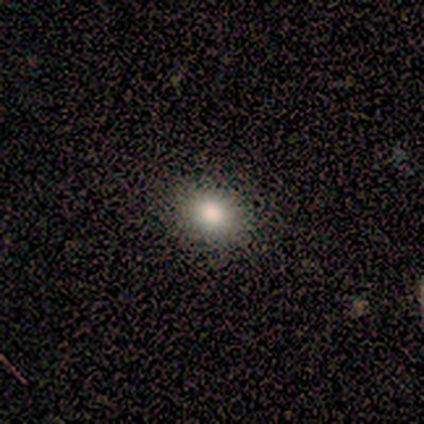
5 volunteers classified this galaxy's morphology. Q: Smooth or featured?
A: smooth (100%)
Q: How rounded?
A: round (80%); runner-up: in between (20%)
Q: Merging?
A: none (100%)